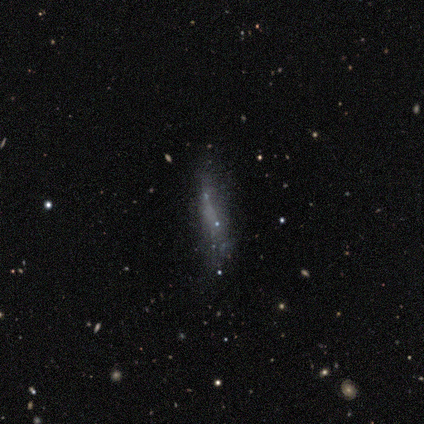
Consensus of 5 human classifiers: Volunteers were most divided on "merging" (3-way tie): none: 33%, minor disturbance: 33%, major disturbance: 33%, merger: 0%. More confident: how rounded — cigar-shaped (100%); smooth or featured — smooth (60%).